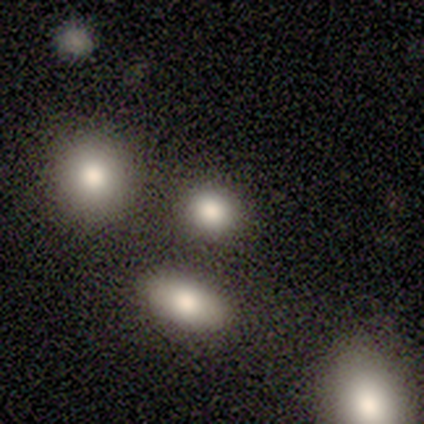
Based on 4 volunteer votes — Smooth or featured?
  - smooth: 50% * (tied)
  - featured or disk: 50% * (tied)
  - star or artifact: 0%
How rounded?
  - round: 50% * (tied)
  - in between: 50% * (tied)
  - cigar-shaped: 0%
Merging?
  - none: 75% *
  - merger: 25%
  - minor disturbance: 0%
  - major disturbance: 0%